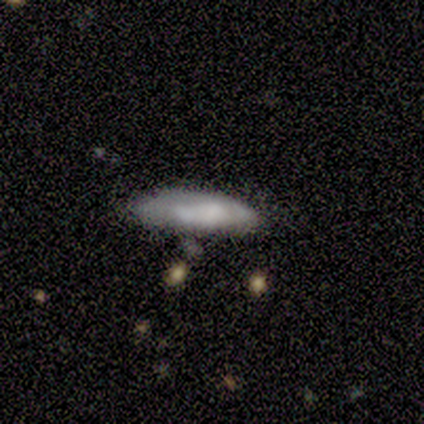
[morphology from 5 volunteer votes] type=smooth (100%); roundness=cigar-shaped (60%); merging=none (60%).